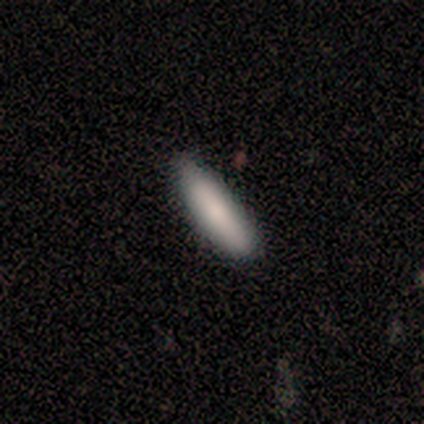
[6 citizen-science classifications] smooth-or-featured: smooth: 67% | star or artifact: 33% | featured or disk: 0%
  how-rounded: cigar-shaped: 100% | round: 0% | in between: 0%
  merging: none: 75% | major disturbance: 25% | minor disturbance: 0% | merger: 0%